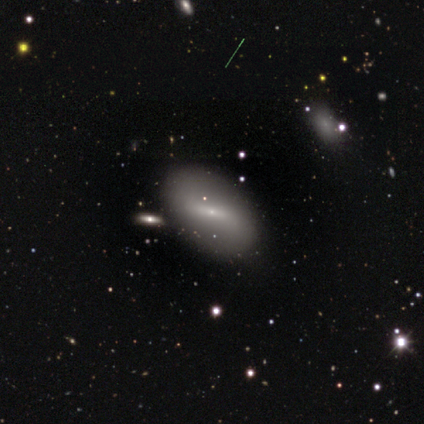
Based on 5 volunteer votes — Volunteers were most divided on "bar" (3-way tie): strong: 33%, weak: 33%, no: 33%. More confident: edge-on disk — no (100%); bulge size — small (100%); spiral arms — no (67%); smooth or featured — featured or disk (60%); merging — merger (60%).